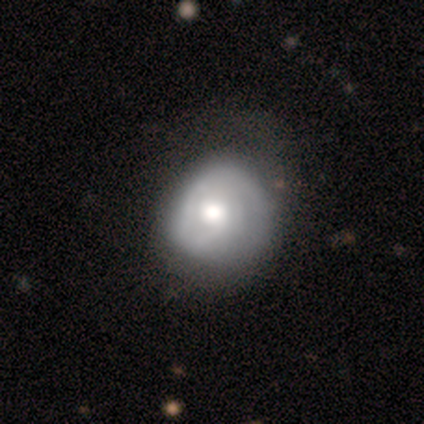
Overall: featured or disk (60%; smooth 40%). Edge-on disk: no (100%). Bar: no (83%). Spiral arms: yes (79%). Spiral arm count: 1 (58%; can't tell 32%). Spiral winding: tight (47%; medium 26%). Bulge size: moderate (62%; large 25%). Merging: none (32%; minor disturbance 20%).